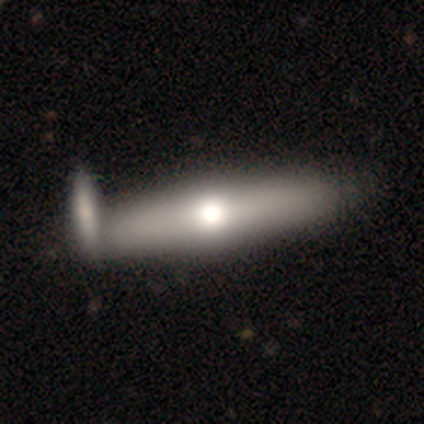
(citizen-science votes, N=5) Morphology: type=featured or disk (60%); edge-on=yes (100%); edge-on bulge=rounded (67%); merging=none (60%).